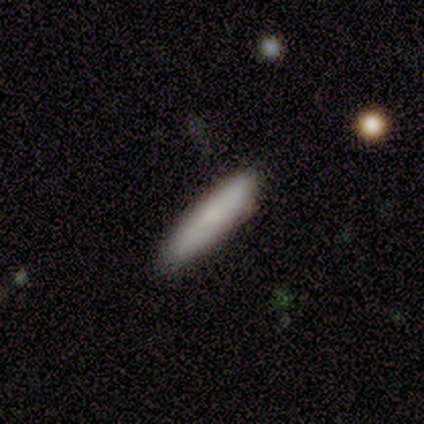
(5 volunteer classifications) Morphology: type=smooth (80%); roundness=cigar-shaped (75%); merging=none (100%).